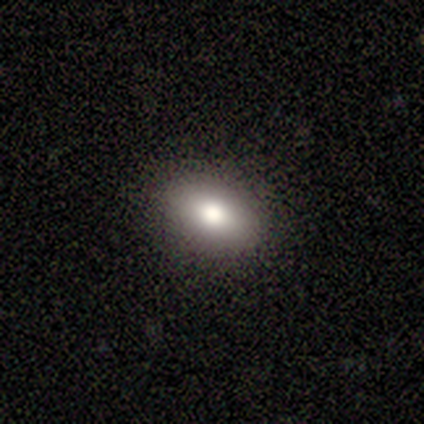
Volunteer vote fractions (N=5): Overall: smooth (80%). How rounded: round (50%, tied with in between). Merging: none (80%).